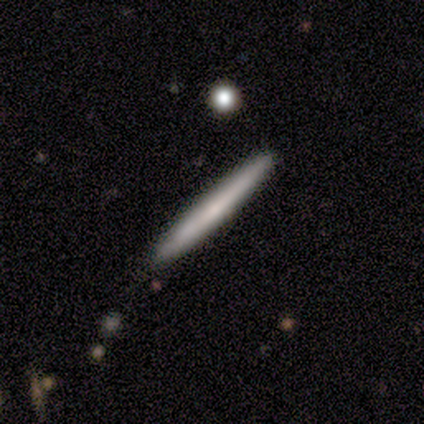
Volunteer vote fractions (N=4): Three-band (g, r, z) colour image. It shows a featured or disk galaxy (75%) viewed edge-on (100%) with no central bulge (67%). Merging: none (75%).